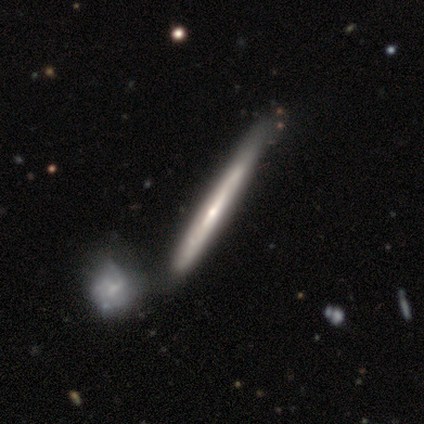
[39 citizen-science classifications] Smooth or featured?
  - featured or disk: 74% *
  - smooth: 26%
  - star or artifact: 0%
Edge-on disk?
  - yes: 86% *
  - no: 14%
Edge-on bulge?
  - rounded: 56% *
  - none: 40%
  - boxy: 4%
Merging?
  - merger: 41% *
  - none: 31%
  - minor disturbance: 13%
  - major disturbance: 3%